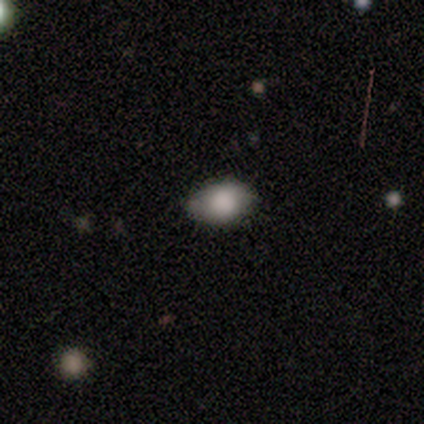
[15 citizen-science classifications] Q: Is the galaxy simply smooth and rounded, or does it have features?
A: smooth — 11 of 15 (73%).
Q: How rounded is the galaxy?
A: in between — 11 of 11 (100%).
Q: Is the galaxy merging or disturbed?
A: none — 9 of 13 (69%).